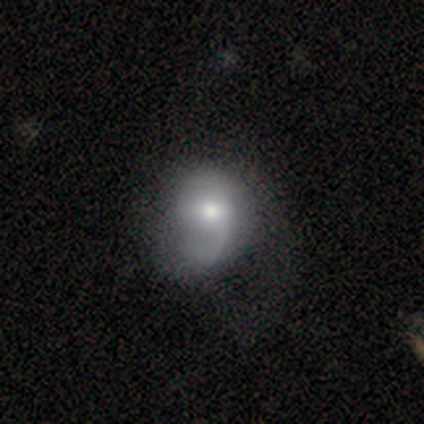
A featured or disk galaxy (60%) with a weak bar (50%, tied with no), 1 (50%, tied with can't tell) tight (50%, tied with loose) spiral arms (100%) and a moderate central bulge (100%). Merging: none (40%, tied with minor disturbance).